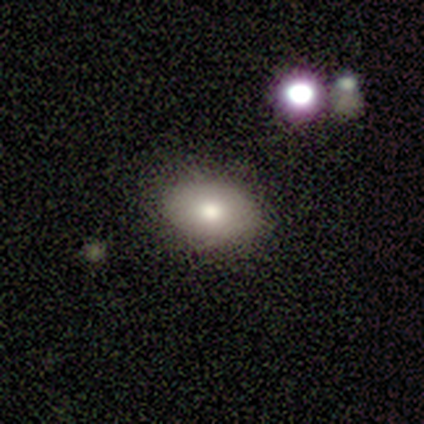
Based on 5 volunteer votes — smooth 100%, featured or disk 0%, star or artifact 0%. Down the decision tree: how rounded — in between (100%); merging — none (100%).